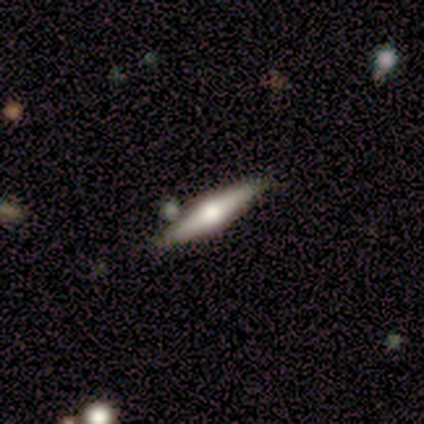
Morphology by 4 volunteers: Smooth or featured?
  - smooth: 50% * (tied)
  - featured or disk: 50% * (tied)
  - star or artifact: 0%
How rounded?
  - in between: 50% * (tied)
  - cigar-shaped: 50% * (tied)
  - round: 0%
Merging?
  - none: 75% *
  - minor disturbance: 25%
  - major disturbance: 0%
  - merger: 0%